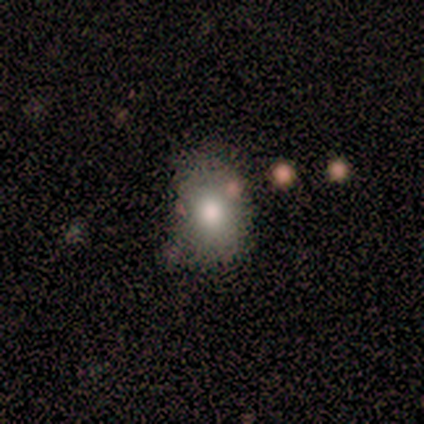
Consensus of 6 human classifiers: This appears to be a smooth galaxy with no disk features (67%) that is in between round and cigar-shaped (75%). Merging: none (60%).